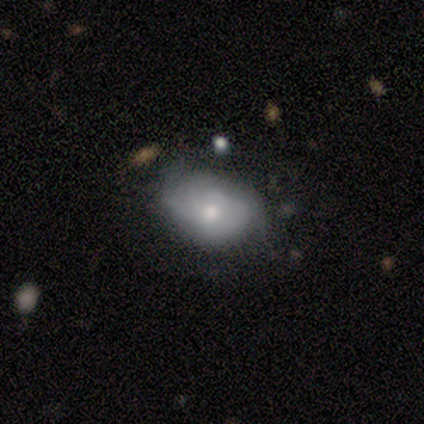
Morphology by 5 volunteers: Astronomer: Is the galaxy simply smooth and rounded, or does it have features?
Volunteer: featured or disk — 80%.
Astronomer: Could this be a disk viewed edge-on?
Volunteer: no — 100%.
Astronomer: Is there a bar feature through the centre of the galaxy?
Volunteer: no — 100%.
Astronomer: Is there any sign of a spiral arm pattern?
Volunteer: yes — 75%.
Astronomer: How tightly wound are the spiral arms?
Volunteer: loose — 67%.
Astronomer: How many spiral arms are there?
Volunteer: can't tell — 67%.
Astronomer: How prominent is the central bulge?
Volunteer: moderate — 75%.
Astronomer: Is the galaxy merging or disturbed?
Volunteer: none — 80%.